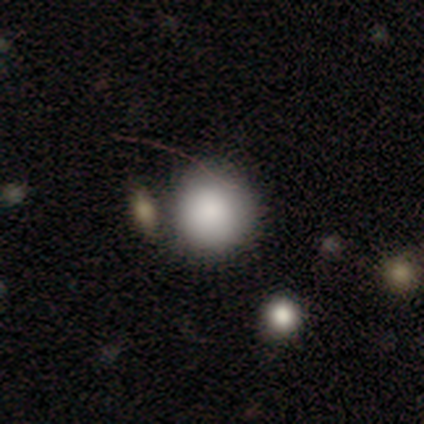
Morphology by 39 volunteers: Q: Smooth or featured?
A: smooth (95%); runner-up: featured or disk (3%)
Q: How rounded?
A: round (89%); runner-up: in between (11%)
Q: Merging?
A: none (76%); runner-up: merger (16%)